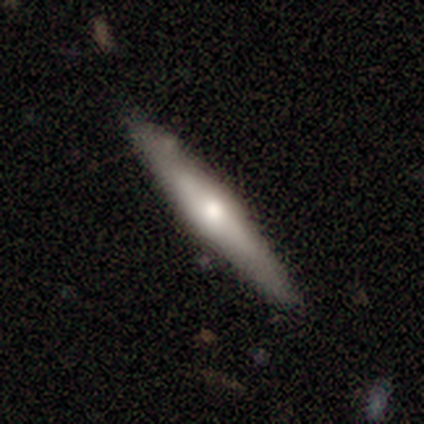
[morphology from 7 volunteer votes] smooth-or-featured: smooth: 71% | featured or disk: 14% | star or artifact: 14%
  how-rounded: cigar-shaped: 100% | round: 0% | in between: 0%
  merging: none: 100% | minor disturbance: 0% | major disturbance: 0% | merger: 0%